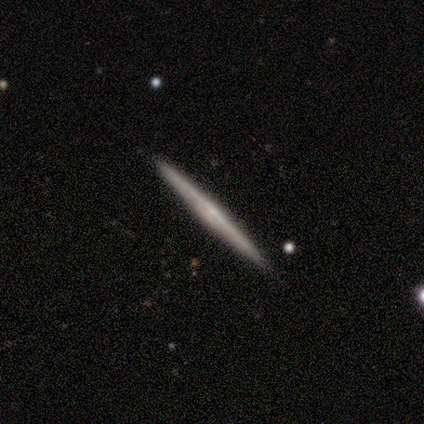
smooth_or_featured: featured or disk (p=0.50) [alt: smooth p=0.25]
disk_edge_on: yes (p=1.00)
edge_on_bulge: boxy (p=0.50) [tied with: none p=0.50]
merging: none (p=1.00)